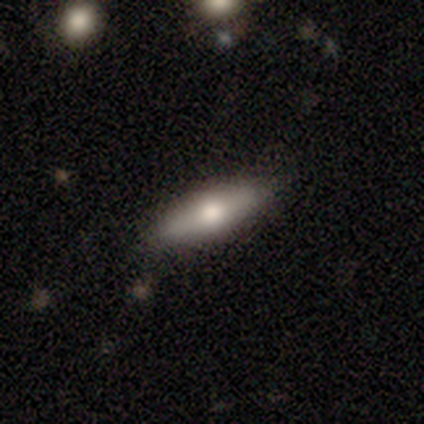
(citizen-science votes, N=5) Volunteers were most divided on "smooth or featured": featured or disk: 60%, smooth: 40%, star or artifact: 0%. More confident: edge-on disk — yes (100%); edge-on bulge — rounded (100%); merging — none (100%).